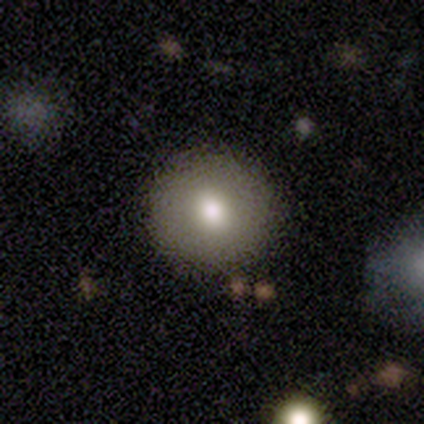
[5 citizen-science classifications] A smooth galaxy with no disk features (60%) that is round (67%). Merging: none (100%).